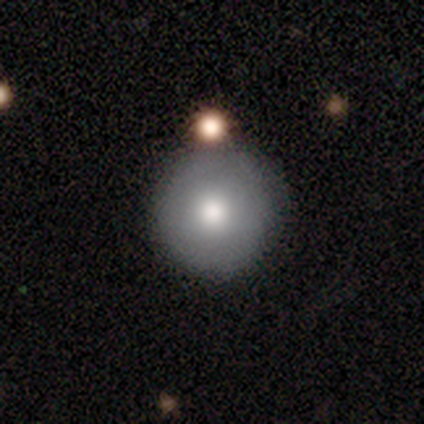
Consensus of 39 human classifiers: A smooth galaxy with no disk features (79%) that is round (94%). Merging: none (72%).